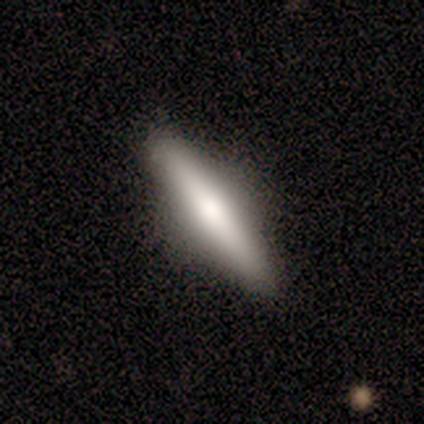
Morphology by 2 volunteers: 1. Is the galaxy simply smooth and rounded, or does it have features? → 50% smooth (tied), 50% featured or disk (tied), 0% star or artifact.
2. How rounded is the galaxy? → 100% cigar-shaped, 0% round, 0% in between.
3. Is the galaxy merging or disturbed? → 100% none, 0% minor disturbance, 0% major disturbance, 0% merger.